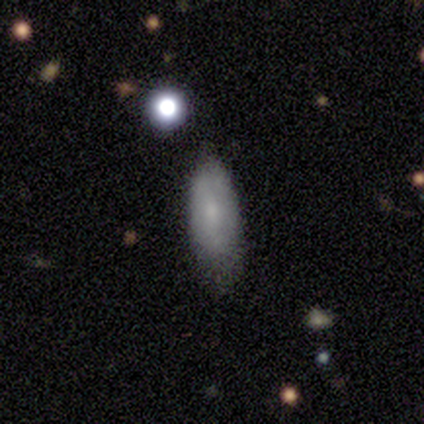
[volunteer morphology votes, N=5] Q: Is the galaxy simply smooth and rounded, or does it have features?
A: smooth — 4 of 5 (80%).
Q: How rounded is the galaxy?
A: in between — 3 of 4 (75%).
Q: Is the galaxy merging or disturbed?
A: none — 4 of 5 (80%).